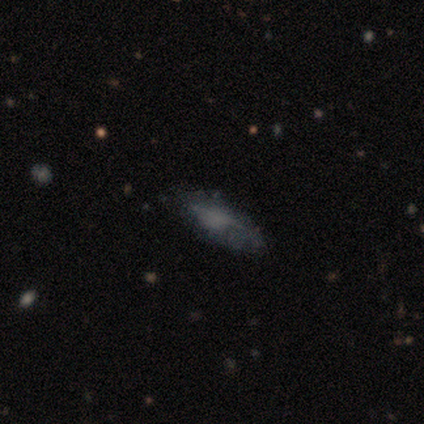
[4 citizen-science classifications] A smooth galaxy with no disk features (50%) that is in between round and cigar-shaped (100%). Merging: minor disturbance (67%).